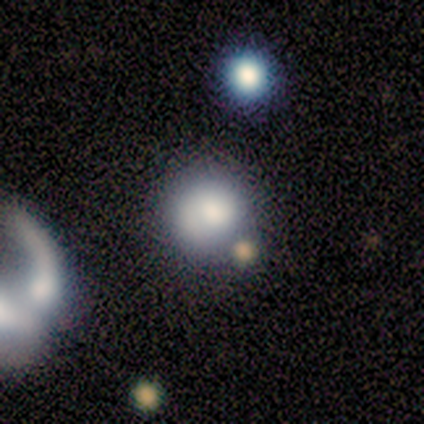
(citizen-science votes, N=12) Overall: smooth (75%). How rounded: round (56%; in between 33%). Merging: none (55%; minor disturbance 27%).